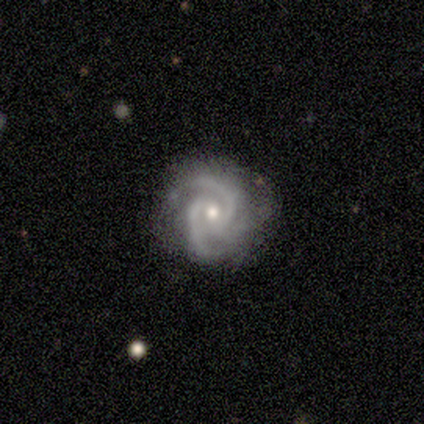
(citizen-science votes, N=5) featured or disk 80%, smooth 20%, star or artifact 0%. Down the decision tree: edge-on disk — no (100%); bar — no (75%); spiral arms — yes (100%); spiral arm count — 3 (75%); spiral winding — tight (75%); bulge size — moderate (50%, tied with small); merging — none (60%).